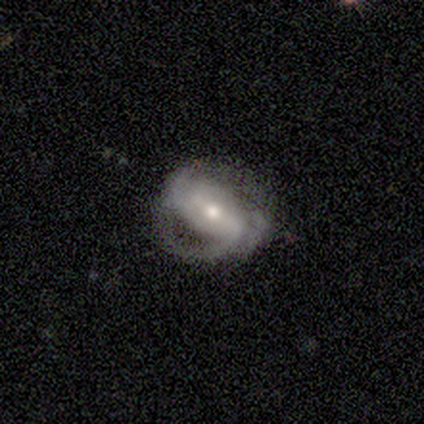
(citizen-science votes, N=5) This is clearly a featured or disk galaxy (100%). It is clearly not viewed edge-on (100%). Bar: likely weak (60%). Spiral arm pattern: clearly yes (80%). Spiral arm count: likely 2 (75%). Spiral winding: possibly loose (50%). Central bulge: clearly small (80%). Merging: likely minor disturbance (60%).